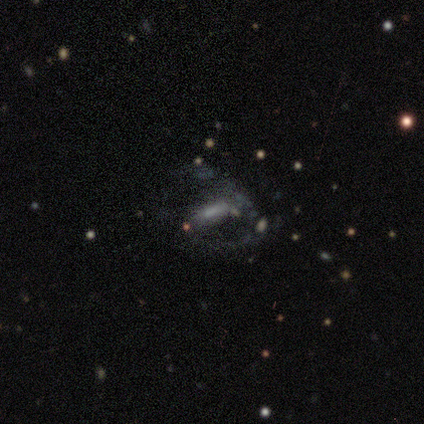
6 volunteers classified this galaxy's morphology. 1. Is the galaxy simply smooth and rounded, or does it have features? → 67% featured or disk, 33% smooth, 0% star or artifact.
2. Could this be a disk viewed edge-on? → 100% no, 0% yes.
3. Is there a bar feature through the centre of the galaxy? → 50% weak (tied), 50% no (tied), 0% strong.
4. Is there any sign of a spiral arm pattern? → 100% yes, 0% no.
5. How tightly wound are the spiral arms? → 100% loose, 0% tight, 0% medium.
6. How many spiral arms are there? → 50% 2 (tied), 50% can't tell (tied), 0% 1, 0% 3, 0% 4, 0% more than 4.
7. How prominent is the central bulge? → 50% none, 25% moderate, 25% small, 0% dominant, 0% large.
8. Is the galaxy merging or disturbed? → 50% none (tied), 50% major disturbance (tied), 0% minor disturbance, 0% merger.